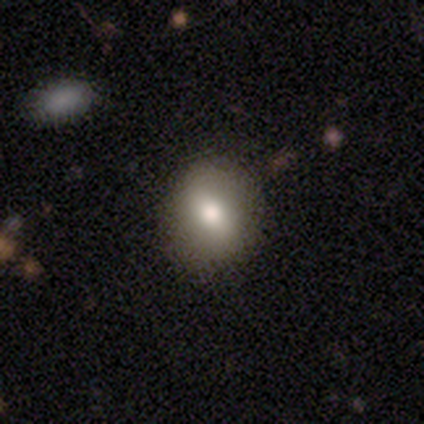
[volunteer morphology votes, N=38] type=smooth (79%); roundness=round (60%); merging=none (72%).